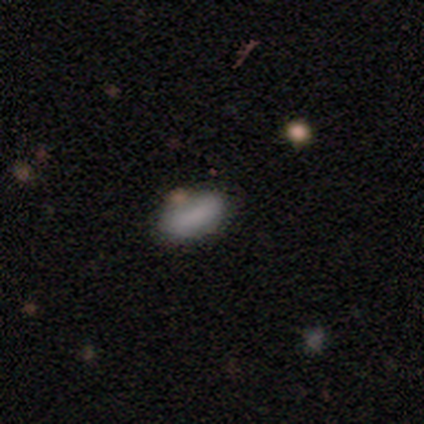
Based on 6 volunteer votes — smooth_or_featured: smooth (p=1.00)
how_rounded: in between (p=0.83) [alt: cigar-shaped p=0.17]
merging: minor disturbance (p=0.67) [alt: none p=0.33]